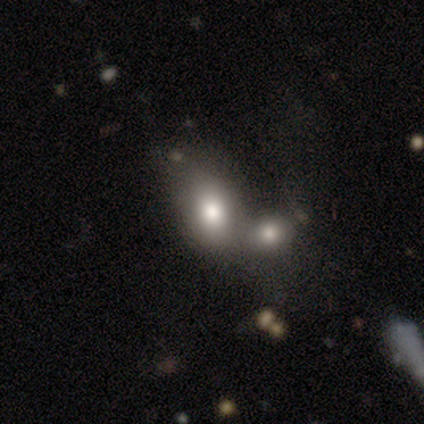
Smooth or featured: smooth — 60% (star or artifact — 28%)
How rounded: in between — 75% (round — 25%)
Merging: merger — 74% (none — 18%)